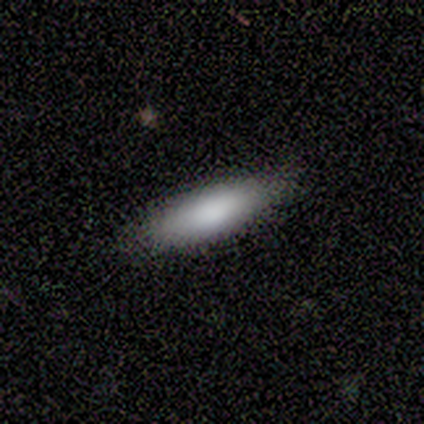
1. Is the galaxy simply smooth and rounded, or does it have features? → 75% smooth, 25% featured or disk, 0% star or artifact.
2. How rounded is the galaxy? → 100% cigar-shaped, 0% round, 0% in between.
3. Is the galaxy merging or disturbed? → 100% none, 0% minor disturbance, 0% major disturbance, 0% merger.